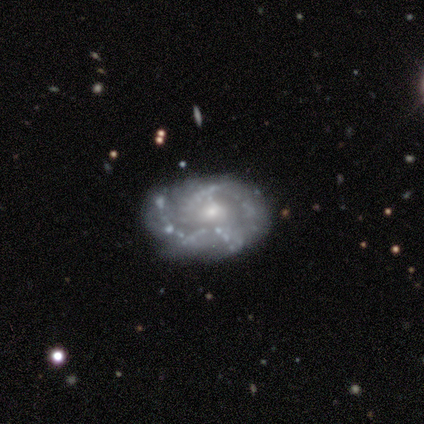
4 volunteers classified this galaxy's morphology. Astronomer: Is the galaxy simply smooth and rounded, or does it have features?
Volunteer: featured or disk — 100%.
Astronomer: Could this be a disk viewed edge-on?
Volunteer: no — 100%.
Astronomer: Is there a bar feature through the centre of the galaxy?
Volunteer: no — 100%.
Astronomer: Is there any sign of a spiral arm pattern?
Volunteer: yes — 50%, tied with no at 50%.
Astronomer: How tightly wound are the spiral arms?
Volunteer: tight — 50%, tied with medium at 50%.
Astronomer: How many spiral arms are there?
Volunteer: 1 — 50%, tied with 3 at 50%.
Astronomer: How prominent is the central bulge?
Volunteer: small — 75%.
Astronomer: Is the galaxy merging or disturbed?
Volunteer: none — 50%, tied with minor disturbance at 50%.